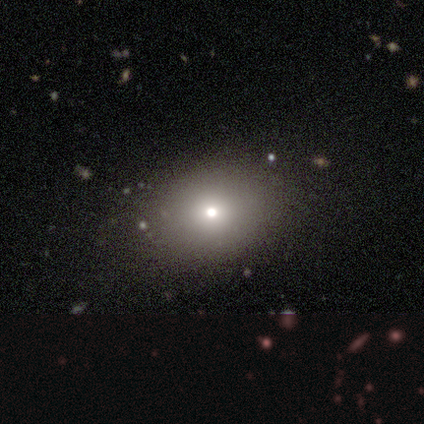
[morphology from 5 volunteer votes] A smooth galaxy with no disk features (80%) that is in between round and cigar-shaped (75%). Merging: none (60%).